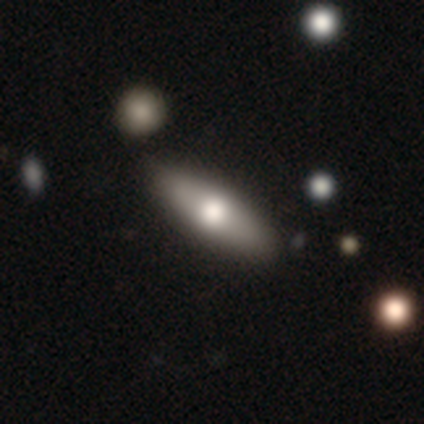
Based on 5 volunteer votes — Smooth or featured? 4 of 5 (80%) said smooth. How rounded? 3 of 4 (75%) said in between. Merging? 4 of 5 (80%) said none.